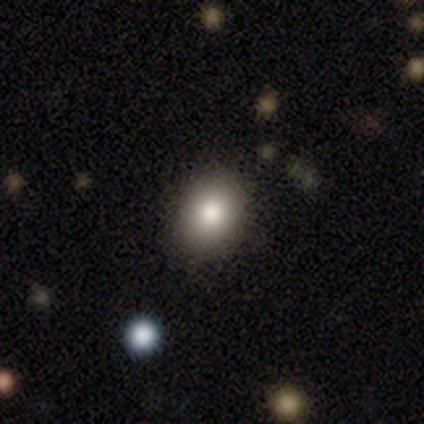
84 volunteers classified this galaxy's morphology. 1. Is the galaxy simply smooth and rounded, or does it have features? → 77% smooth, 15% star or artifact, 7% featured or disk.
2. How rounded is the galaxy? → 62% in between, 38% round, 0% cigar-shaped.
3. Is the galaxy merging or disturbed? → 79% none, 18% minor disturbance, 3% major disturbance, 0% merger.